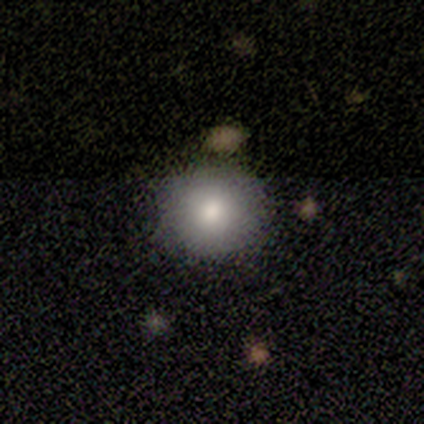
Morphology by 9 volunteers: A smooth galaxy with no disk features (100%) that is round (100%). Merging: none (78%).